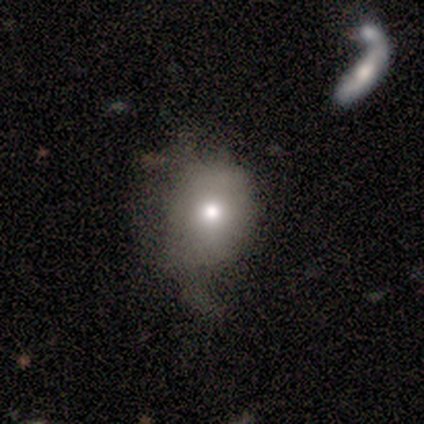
A smooth galaxy with no disk features (57%) that is round (75%).

Vote fractions:
- Smooth or featured? smooth: 57% / featured or disk: 29% / star or artifact: 14%
- How rounded? round: 75% / in between: 25% / cigar-shaped: 0%
- Merging? minor disturbance: 50% / major disturbance: 33% / none: 17% / merger: 0%